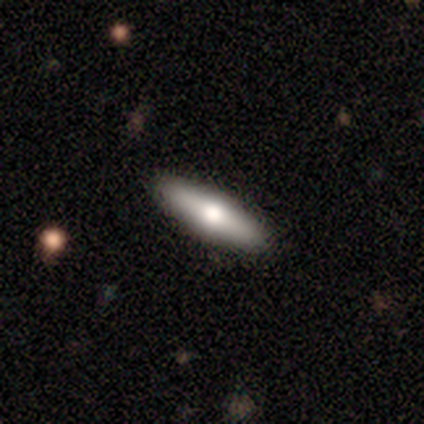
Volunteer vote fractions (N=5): Morphology: type=featured or disk (60%); edge-on=no (67%); bar=no (100%); spiral arms=no (100%); bulge=moderate (100%); merging=none (100%).